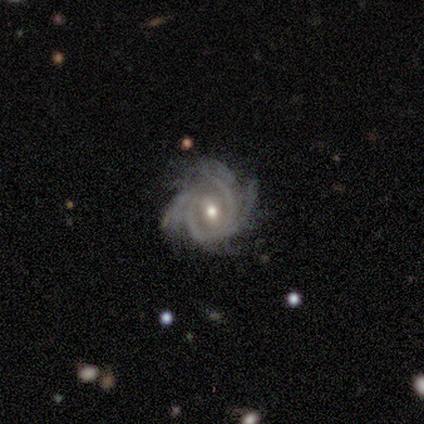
This is clearly a featured or disk galaxy (96%). It is clearly not viewed edge-on (100%). Bar: possibly no (47%). Spiral arm pattern: clearly yes (96%). Spiral arm count: marginally 4 (35%). Spiral winding: likely tight (63%). Central bulge: clearly moderate (82%). Merging: likely none (72%).